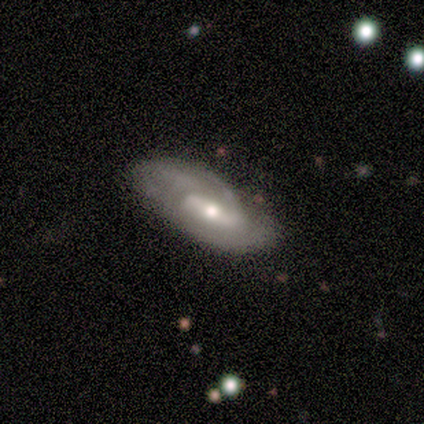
This appears to be a featured or disk galaxy (60%) with a strong bar (100%), 1 (50%, tied with can't tell) tight (50%, tied with loose) spiral arms (100%) and a moderate central bulge (50%, tied with small). Merging: none (60%).